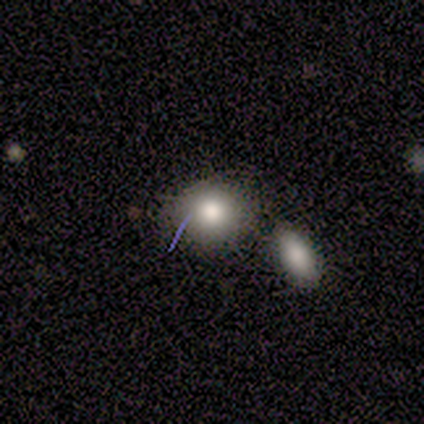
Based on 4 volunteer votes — Q: Smooth or featured?
A: smooth (75%); runner-up: featured or disk (25%)
Q: How rounded?
A: round (100%)
Q: Merging?
A: none (75%); runner-up: merger (25%)